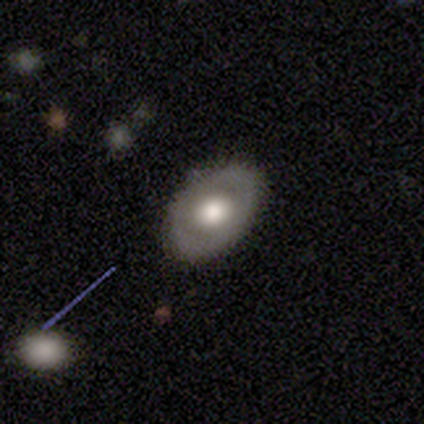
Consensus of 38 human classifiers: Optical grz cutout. It shows a featured or disk galaxy (50%) with no bar (89%), no spiral arms (94%) and a moderate central bulge (56%). Merging: none (83%).